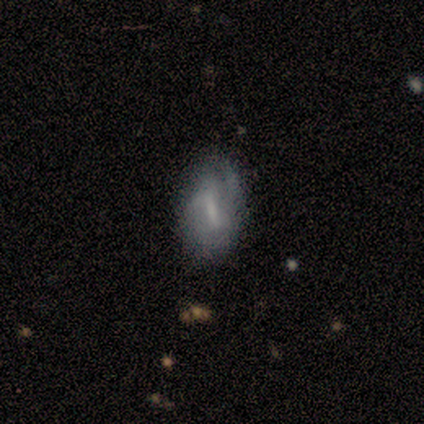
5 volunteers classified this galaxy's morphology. Q: Smooth or featured?
A: featured or disk (100%)
Q: Edge-on disk?
A: no (100%)
Q: Bar?
A: weak (60%); runner-up: strong (40%)
Q: Spiral arms?
A: no (60%); runner-up: yes (40%)
Q: Bulge size?
A: small (40%); tied with: none (40%)
Q: Merging?
A: minor disturbance (60%); runner-up: none (40%)